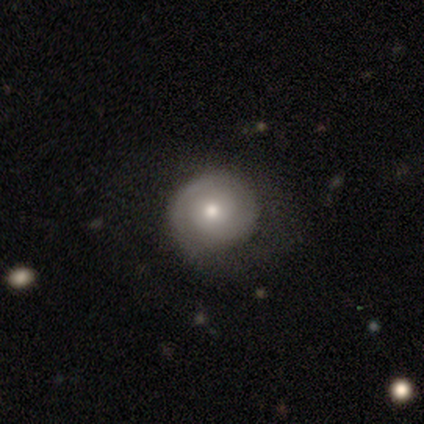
featured or disk 67%, smooth 33%, star or artifact 0%. Down the decision tree: edge-on disk — no (75%); bar — no (67%); spiral arms — yes (100%); spiral arm count — 2 (67%); spiral winding — tight (67%); bulge size — moderate (67%); merging — none (50%).